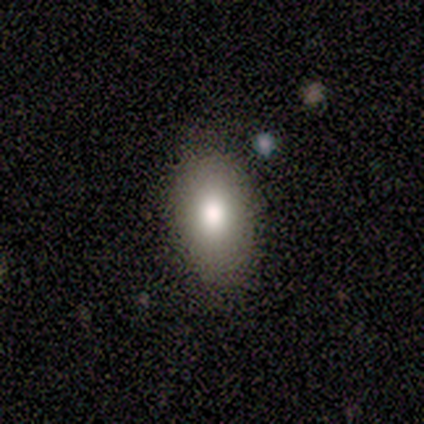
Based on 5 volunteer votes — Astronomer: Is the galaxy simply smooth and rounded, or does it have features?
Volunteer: smooth — 80%.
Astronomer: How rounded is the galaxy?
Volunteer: in between — 100%.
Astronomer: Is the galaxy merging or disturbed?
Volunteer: none — 100%.